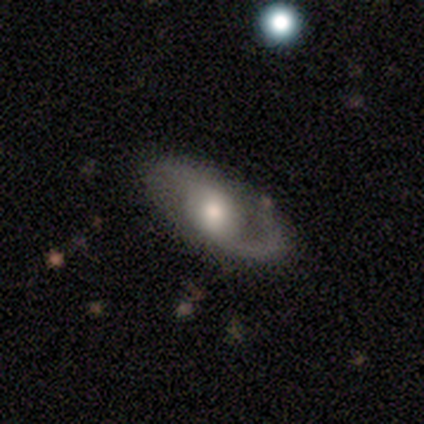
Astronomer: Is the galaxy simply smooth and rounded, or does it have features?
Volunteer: featured or disk — 88%.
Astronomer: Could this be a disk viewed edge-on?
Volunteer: no — 97%.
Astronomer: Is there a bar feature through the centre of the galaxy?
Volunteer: weak — 59% (runner-up: no, 38%).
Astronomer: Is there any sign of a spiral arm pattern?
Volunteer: yes — 88%.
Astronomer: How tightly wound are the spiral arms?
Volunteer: medium — 50% (runner-up: loose, 47%).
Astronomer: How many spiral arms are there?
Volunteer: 2 — 77%.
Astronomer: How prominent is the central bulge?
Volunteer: moderate — 65%.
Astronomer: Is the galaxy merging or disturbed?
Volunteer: none — 80%.